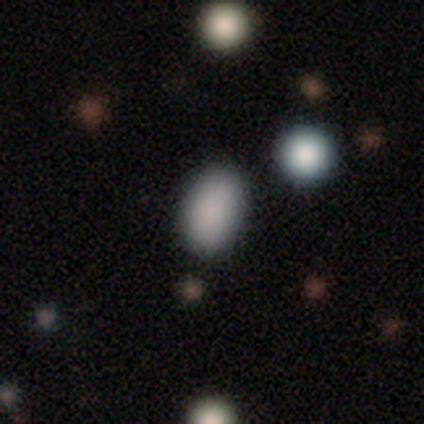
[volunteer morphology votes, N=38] This appears to be a smooth galaxy with no disk features (92%) that is in between round and cigar-shaped (83%). Merging: none (78%).